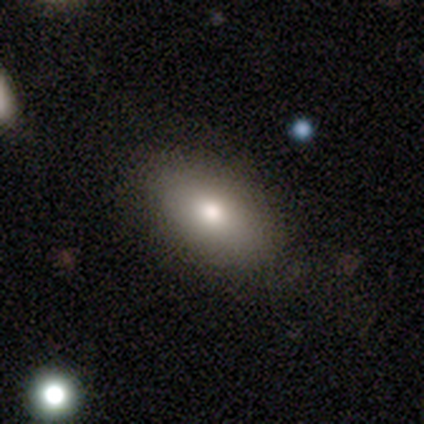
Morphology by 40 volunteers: Overall: smooth (82%). How rounded: in between (85%). Merging: none (87%).